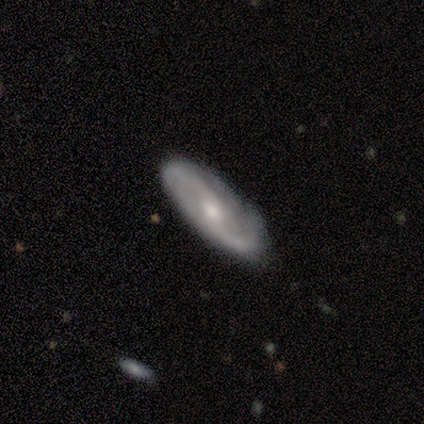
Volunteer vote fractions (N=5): Overall: featured or disk (80%). Edge-on disk: no (100%). Bar: no (50%; strong 25%). Spiral arms: yes (100%). Spiral arm count: 2 (100%). Spiral winding: medium (75%). Bulge size: moderate (75%). Merging: none (100%).